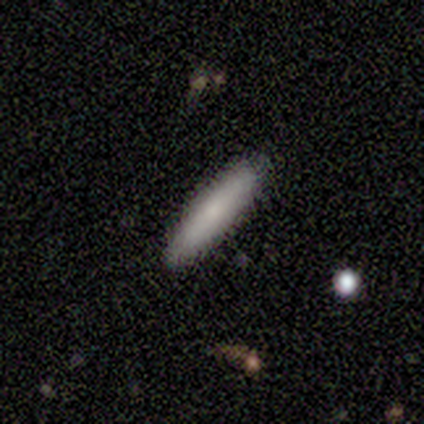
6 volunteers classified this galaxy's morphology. Smooth or featured? 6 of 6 (100%) said smooth. How rounded? 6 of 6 (100%) said cigar-shaped. Merging? 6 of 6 (100%) said none.